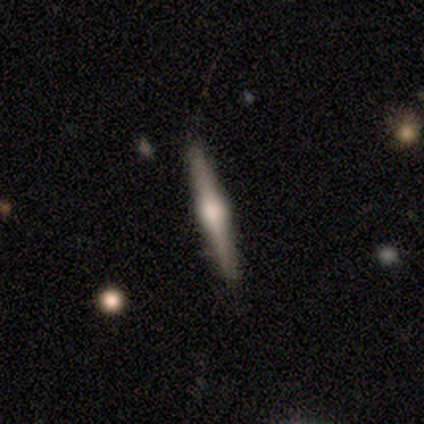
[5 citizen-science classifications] This appears to be a smooth galaxy with no disk features (60%) that is cigar-shaped (67%). Merging: none (80%).